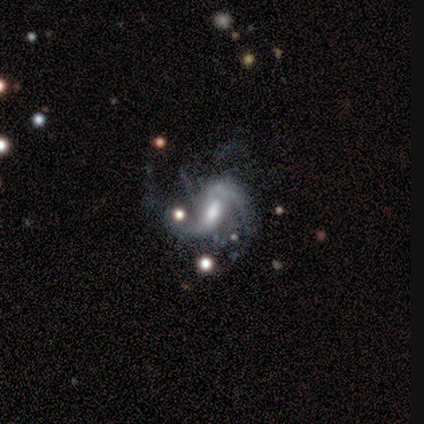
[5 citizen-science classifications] smooth-or-featured: featured or disk: 100% | smooth: 0% | star or artifact: 0%
  disk-edge-on: no: 80% | yes: 20%
    bar: weak: 75% | no: 25% | strong: 0%
    has-spiral-arms: yes: 75% | no: 25%
      spiral-winding: tight: 33% (tied) | medium: 33% (tied) | loose: 33% (tied)
      spiral-arm-count: 2: 100% | 1: 0% | 3: 0% | 4: 0% | more than 4: 0% | can't tell: 0%
    bulge-size: moderate: 50% (tied) | small: 50% (tied) | dominant: 0% | large: 0% | none: 0%
  merging: none: 40% (tied) | minor disturbance: 40% (tied) | major disturbance: 20% | merger: 0%